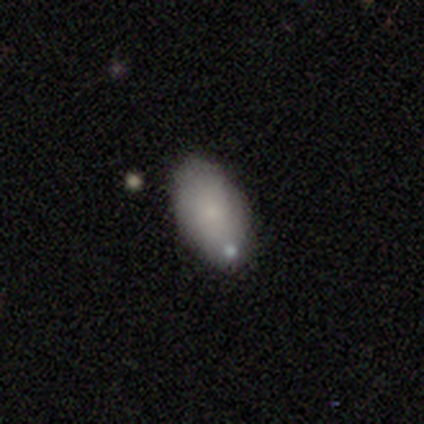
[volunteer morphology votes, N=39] Q: Smooth or featured?
A: smooth (79%); runner-up: featured or disk (18%)
Q: How rounded?
A: in between (100%)
Q: Merging?
A: none (76%); runner-up: minor disturbance (18%)